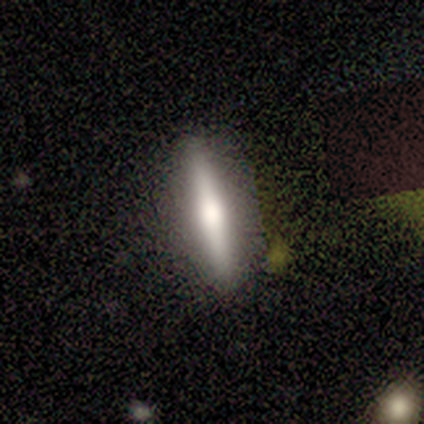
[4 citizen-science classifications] Volunteers were most divided on "smooth or featured": smooth: 75%, featured or disk: 25%, star or artifact: 0%. More confident: how rounded — cigar-shaped (100%); merging — none (100%).